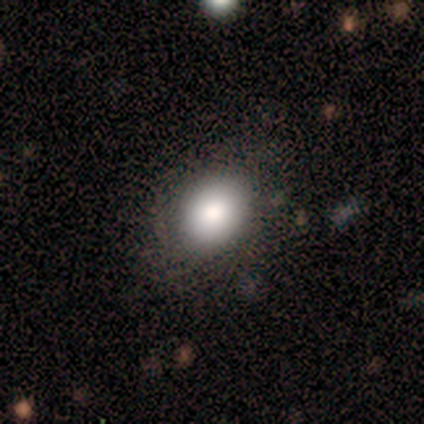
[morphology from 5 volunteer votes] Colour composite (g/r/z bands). It shows a smooth galaxy with no disk features (100%) that is round (60%). Merging: none (100%).